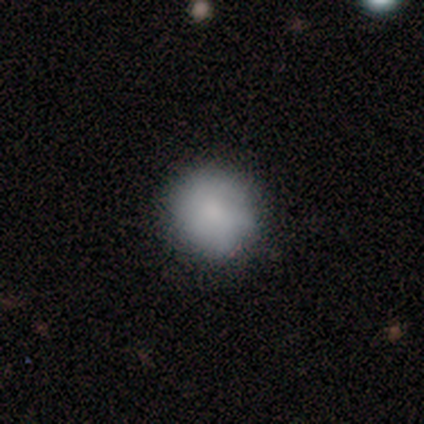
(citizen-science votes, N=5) Q: Smooth or featured?
A: smooth (80%); runner-up: featured or disk (20%)
Q: How rounded?
A: round (100%)
Q: Merging?
A: none (60%); runner-up: minor disturbance (20%)